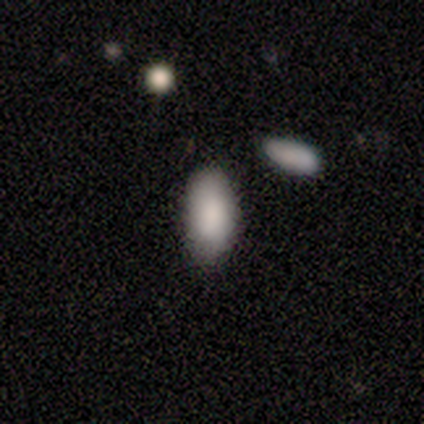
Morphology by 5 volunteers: Smooth or featured? 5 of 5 (100%) said smooth. How rounded? 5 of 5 (100%) said in between. Merging? 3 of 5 (60%) said none.